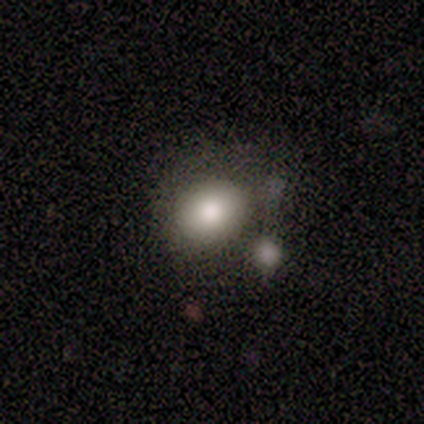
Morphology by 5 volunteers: Volunteers were most divided on "merging": none: 60%, merger: 40%, minor disturbance: 0%, major disturbance: 0%. More confident: smooth or featured — smooth (80%); how rounded — in between (75%).